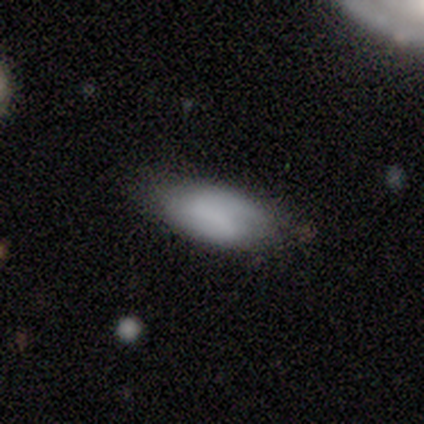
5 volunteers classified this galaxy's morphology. Overall: smooth (60%; featured or disk 40%). How rounded: in between (100%). Merging: none (80%).